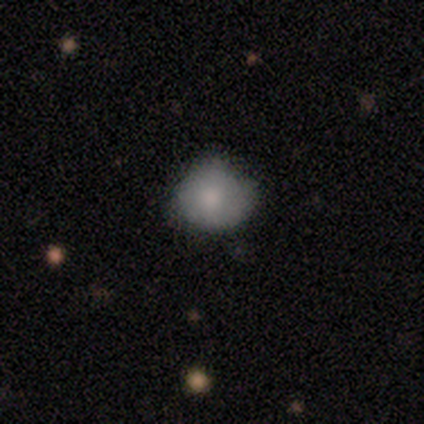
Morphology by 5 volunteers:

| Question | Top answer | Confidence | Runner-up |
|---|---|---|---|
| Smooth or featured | smooth | 100% | — |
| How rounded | round | 80% | in between (20%) |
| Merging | minor disturbance | 80% | none (20%) |